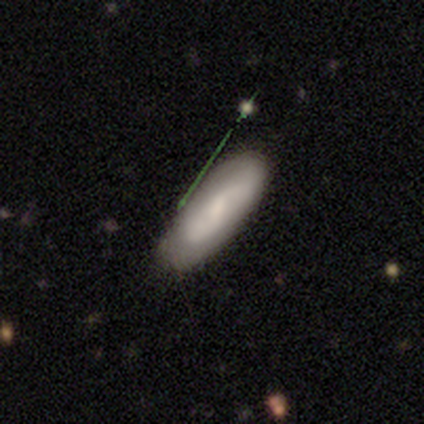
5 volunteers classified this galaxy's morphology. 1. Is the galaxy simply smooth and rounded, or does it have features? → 60% smooth, 40% featured or disk, 0% star or artifact.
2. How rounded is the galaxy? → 67% in between, 33% cigar-shaped, 0% round.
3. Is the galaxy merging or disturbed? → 100% none, 0% minor disturbance, 0% major disturbance, 0% merger.